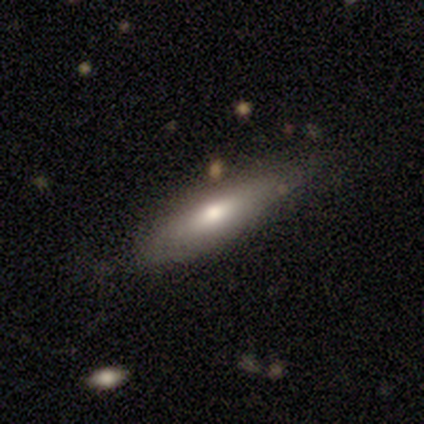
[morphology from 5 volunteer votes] Q: Smooth or featured?
A: smooth (60%); runner-up: featured or disk (40%)
Q: How rounded?
A: in between (67%); runner-up: cigar-shaped (33%)
Q: Merging?
A: none (60%); runner-up: minor disturbance (40%)